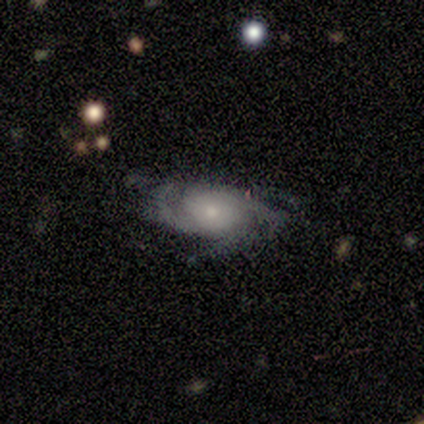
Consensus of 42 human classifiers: Smooth or featured: featured or disk — 86% (star or artifact — 14%)
Edge-on disk: no — 100%
Bar: no — 92% (weak — 6%)
Spiral arms: yes — 97% (no — 3%)
Spiral winding: medium — 49% (tight — 37%)
Spiral arm count: 3 — 46% (can't tell — 26%)
Bulge size: small — 56% (moderate — 28%)
Merging: none — 72% (minor disturbance — 19%)